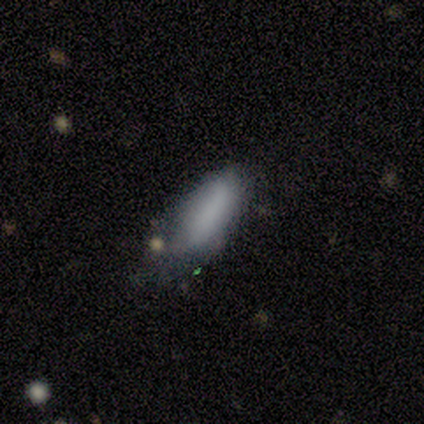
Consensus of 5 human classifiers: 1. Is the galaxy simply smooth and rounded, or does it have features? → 80% smooth, 20% featured or disk, 0% star or artifact.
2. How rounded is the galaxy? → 75% in between, 25% cigar-shaped, 0% round.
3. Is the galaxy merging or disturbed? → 60% minor disturbance, 40% none, 0% major disturbance, 0% merger.